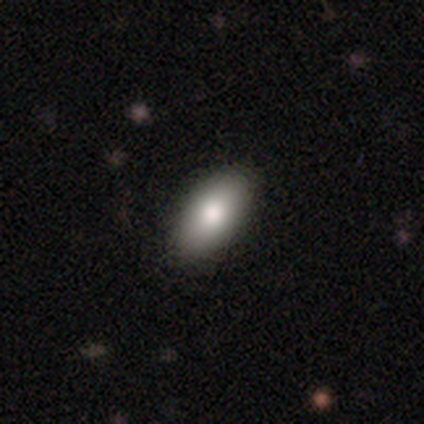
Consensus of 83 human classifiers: Smooth or featured? 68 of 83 (82%) said smooth. How rounded? 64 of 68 (94%) said in between. Merging? 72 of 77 (94%) said none.